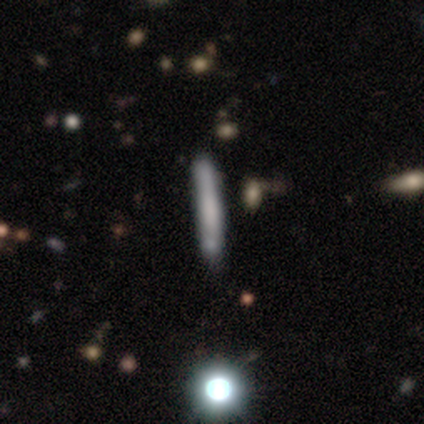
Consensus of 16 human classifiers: A smooth galaxy with no disk features (69%) that is cigar-shaped (91%).

Vote fractions:
- Smooth or featured? smooth: 69% / featured or disk: 31% / star or artifact: 0%
- How rounded? cigar-shaped: 91% / round: 9% / in between: 0%
- Merging? none: 75% / minor disturbance: 12% / merger: 12% / major disturbance: 0%